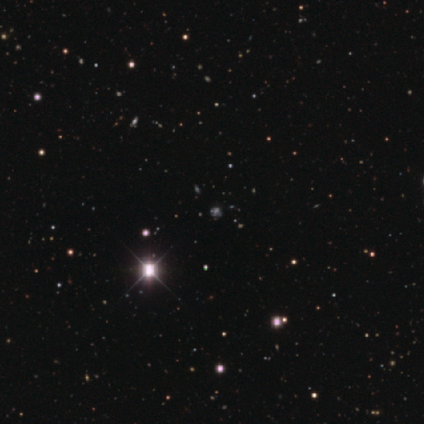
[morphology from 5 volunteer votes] Smooth or featured: star or artifact — 100%